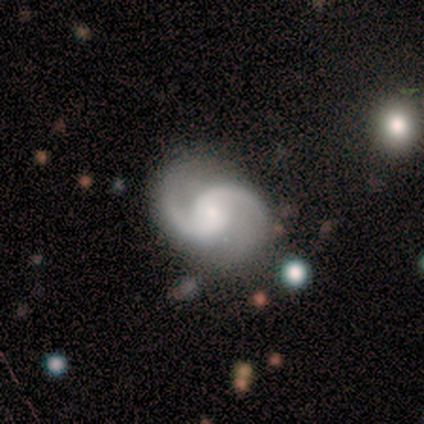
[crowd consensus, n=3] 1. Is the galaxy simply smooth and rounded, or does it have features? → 67% featured or disk, 33% star or artifact, 0% smooth.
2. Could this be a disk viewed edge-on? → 100% no, 0% yes.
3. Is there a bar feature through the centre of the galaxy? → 100% no, 0% strong, 0% weak.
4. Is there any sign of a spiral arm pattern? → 100% yes, 0% no.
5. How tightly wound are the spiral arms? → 50% medium (tied), 50% loose (tied), 0% tight.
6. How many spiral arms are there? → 100% 2, 0% 1, 0% 3, 0% 4, 0% more than 4, 0% can't tell.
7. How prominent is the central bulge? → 100% small, 0% dominant, 0% large, 0% moderate, 0% none.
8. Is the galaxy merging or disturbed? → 50% none (tied), 50% minor disturbance (tied), 0% major disturbance, 0% merger.